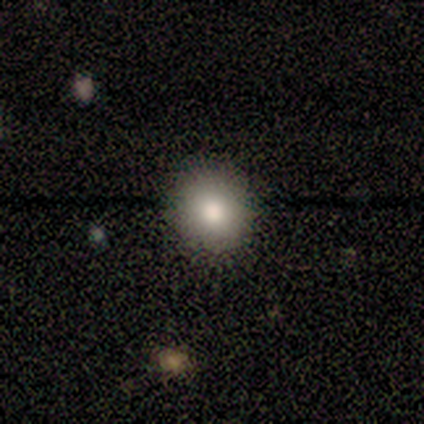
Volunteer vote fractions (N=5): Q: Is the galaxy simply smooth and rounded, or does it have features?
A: smooth — 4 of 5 (80%).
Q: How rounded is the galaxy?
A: round — 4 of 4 (100%).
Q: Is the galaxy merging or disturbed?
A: none — 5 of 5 (100%).